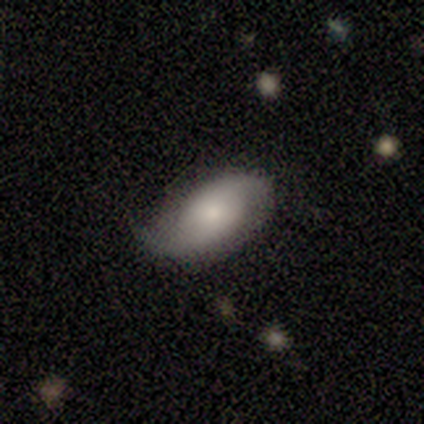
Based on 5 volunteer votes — smooth-or-featured: featured or disk: 60% | smooth: 40% | star or artifact: 0%
  disk-edge-on: no: 100% | yes: 0%
    bar: weak: 67% | no: 33% | strong: 0%
    has-spiral-arms: yes: 100% | no: 0%
      spiral-winding: loose: 67% | medium: 33% | tight: 0%
      spiral-arm-count: 2: 100% | 1: 0% | 3: 0% | 4: 0% | more than 4: 0% | can't tell: 0%
    bulge-size: small: 67% | moderate: 33% | dominant: 0% | large: 0% | none: 0%
  merging: none: 80% | minor disturbance: 20% | major disturbance: 0% | merger: 0%